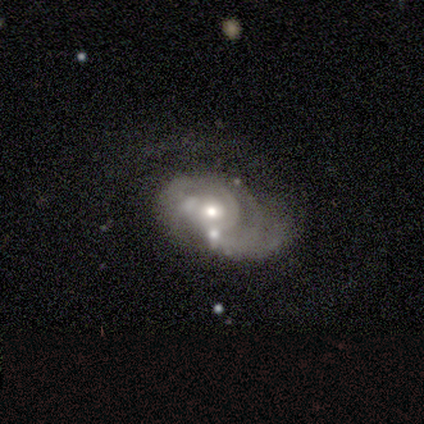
Q: Smooth or featured?
A: featured or disk (90%); runner-up: star or artifact (7%)
Q: Edge-on disk?
A: no (95%); runner-up: yes (5%)
Q: Bar?
A: no (84%); runner-up: weak (15%)
Q: Spiral arms?
A: yes (86%); runner-up: no (14%)
Q: Spiral winding?
A: tight (68%); runner-up: medium (22%)
Q: Spiral arm count?
A: can't tell (44%); runner-up: 2 (22%)
Q: Bulge size?
A: moderate (73%); runner-up: small (23%)
Q: Merging?
A: major disturbance (36%); runner-up: none (28%)